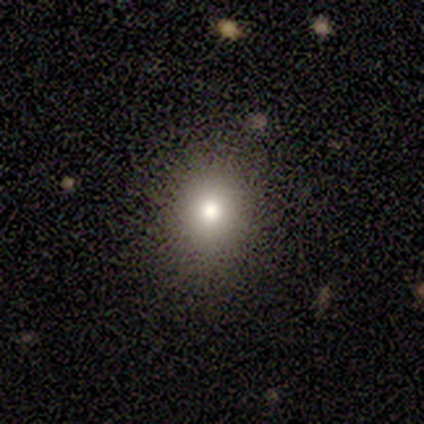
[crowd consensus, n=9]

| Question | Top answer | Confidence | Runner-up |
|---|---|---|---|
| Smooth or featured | smooth | 67% | star or artifact (33%) |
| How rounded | round | 50% | tied: in between (50%) |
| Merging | none | 100% | — |